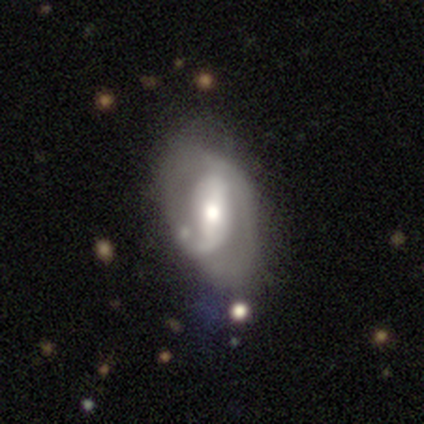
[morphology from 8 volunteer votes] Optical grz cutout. It shows a featured or disk galaxy (88%) with a strong bar (43%), 1 (40%, tied with 2) medium (60%) spiral arms (71%) and a moderate central bulge (71%). Merging: none (62%).